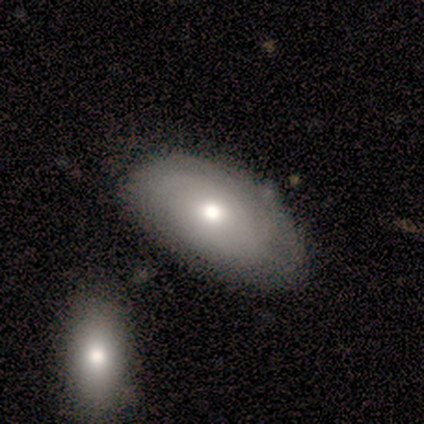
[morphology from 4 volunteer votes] Smooth or featured? smooth (50%, tied with featured or disk)
How rounded? in between (100%)
Merging? none (75%)